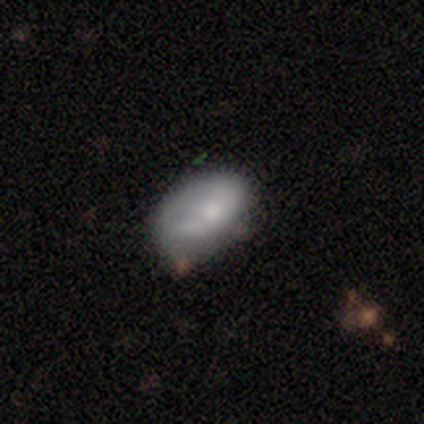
This is possibly a smooth galaxy (51%). How rounded: clearly in between (95%). Merging: marginally minor disturbance (32%).